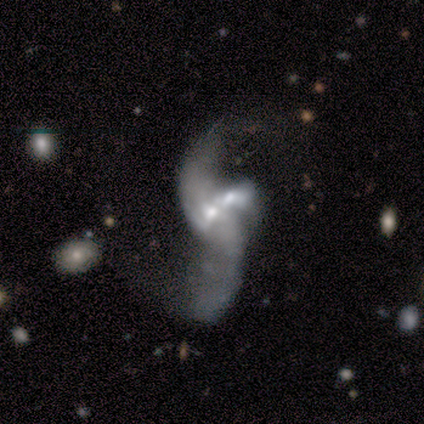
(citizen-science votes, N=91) A featured or disk galaxy (90%) with no bar (63%), 2 (84%) loose (95%) spiral arms (80%) and a moderate central bulge (53%).

Vote fractions:
- Smooth or featured? featured or disk: 90% / smooth: 8% / star or artifact: 2%
- Edge-on disk? no: 96% / yes: 4%
- Bar? no: 63% / weak: 29% / strong: 8%
- Spiral arms? yes: 80% / no: 20%
- Spiral winding? loose: 95% / medium: 3% / tight: 2%
- Spiral arm count? 2: 84% / can't tell: 11% / 1: 3% / 3: 2% / 4: 0% / more than 4: 0%
- Bulge size? moderate: 53% / small: 35% / large: 5% / none: 5% / dominant: 1%
- Merging? merger: 79% / major disturbance: 12% / none: 4% / minor disturbance: 4%